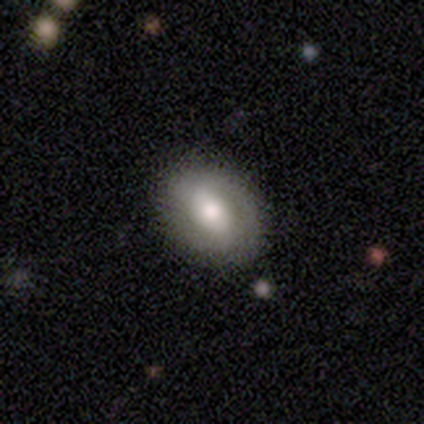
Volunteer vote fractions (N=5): Overall: featured or disk (60%; smooth 40%). Edge-on disk: no (100%). Bar: weak (67%; strong 33%). Spiral arms: yes (67%; no 33%). Spiral arm count: 2 (100%). Spiral winding: tight (50%, tied with medium). Bulge size: small (67%; moderate 33%). Merging: none (100%).